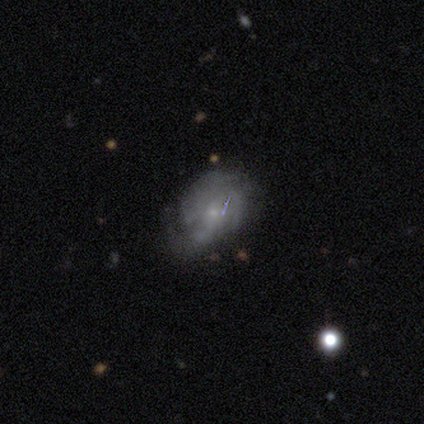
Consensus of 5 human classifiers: Morphology: type=featured or disk (100%); edge-on=no (100%); bar=no (100%); spiral arms=yes (100%); winding=medium (60%); arm count=3 (80%); bulge=small (100%); merging=none (80%).